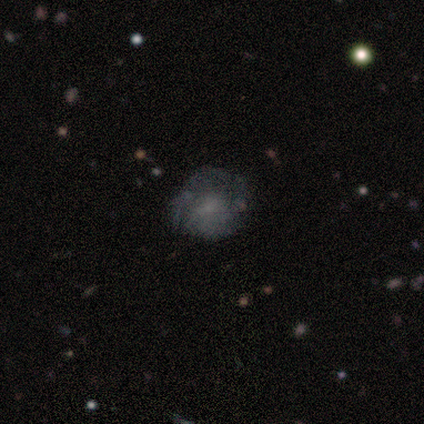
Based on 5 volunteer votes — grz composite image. It shows a featured or disk galaxy (60%) with no bar (67%), no spiral arms (67%) and a small central bulge (67%). Merging: minor disturbance (60%).